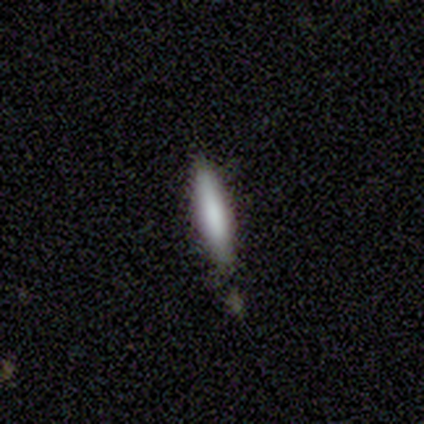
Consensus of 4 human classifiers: Q: Smooth or featured?
A: smooth (75%); runner-up: featured or disk (25%)
Q: How rounded?
A: cigar-shaped (100%)
Q: Merging?
A: none (100%)